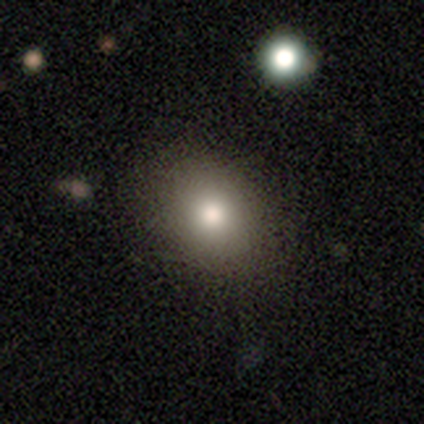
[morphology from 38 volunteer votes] Volunteers were most divided on "how rounded": in between: 55%, round: 45%, cigar-shaped: 0%. More confident: merging — none (81%); smooth or featured — smooth (76%).